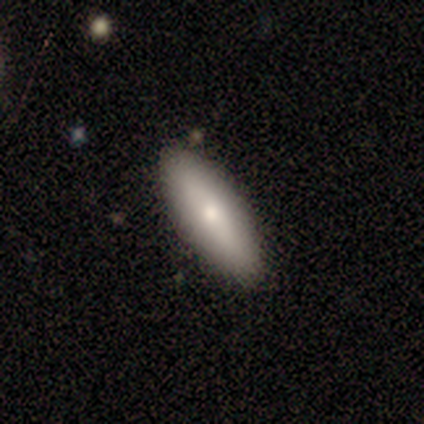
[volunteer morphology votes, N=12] Smooth or featured: smooth — 92% (featured or disk — 8%)
How rounded: in between — 73% (cigar-shaped — 27%)
Merging: none — 100%